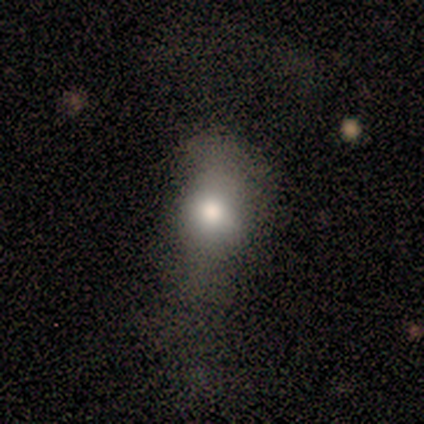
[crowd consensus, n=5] This is likely a smooth galaxy (60%). How rounded: clearly in between (100%). Merging: possibly none (50%, tied with major disturbance).